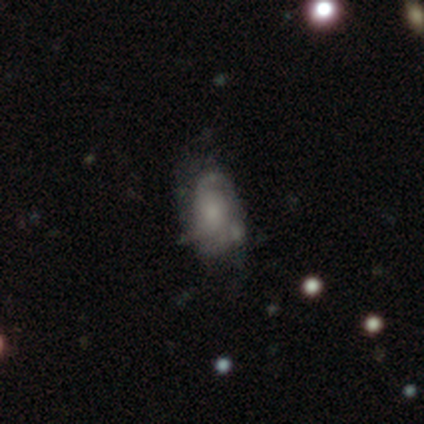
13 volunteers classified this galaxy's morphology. Smooth or featured? 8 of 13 (62%) said featured or disk. Edge-on disk? 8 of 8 (100%) said no. Bar? 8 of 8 (100%) said no. Spiral arms? 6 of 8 (75%) said yes. Spiral winding? 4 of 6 (67%) said tight. Spiral arm count? 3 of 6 (50%) said 2. Bulge size? 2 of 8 (25%, tied with small and none) said large. Merging? 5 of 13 (38%) said none.